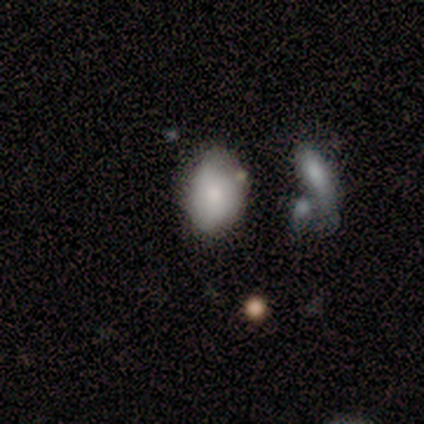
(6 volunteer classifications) Smooth or featured? smooth (67%)
How rounded? in between (75%)
Merging? minor disturbance (50%)